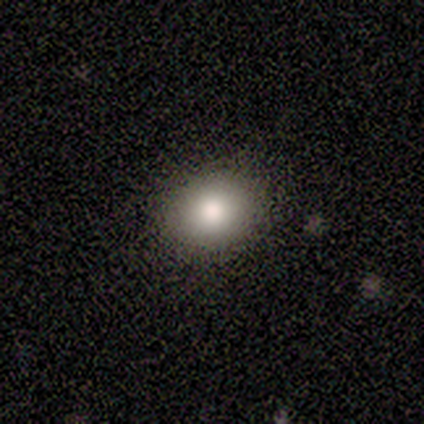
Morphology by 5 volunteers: A smooth galaxy with no disk features (80%) that is in between round and cigar-shaped (100%).

Vote fractions:
- Smooth or featured? smooth: 80% / star or artifact: 20% / featured or disk: 0%
- How rounded? in between: 100% / round: 0% / cigar-shaped: 0%
- Merging? none: 75% / minor disturbance: 25% / major disturbance: 0% / merger: 0%